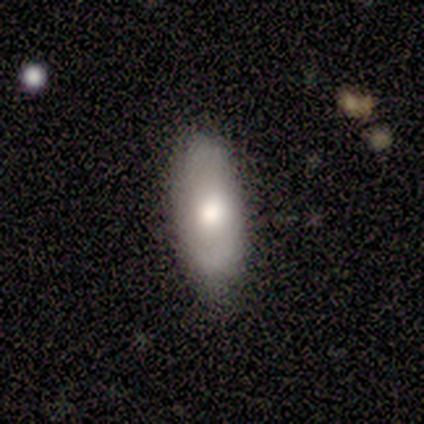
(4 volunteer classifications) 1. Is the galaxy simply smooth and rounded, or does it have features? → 50% smooth (tied), 50% featured or disk (tied), 0% star or artifact.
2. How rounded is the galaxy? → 100% in between, 0% round, 0% cigar-shaped.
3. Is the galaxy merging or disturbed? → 75% none, 25% major disturbance, 0% minor disturbance, 0% merger.